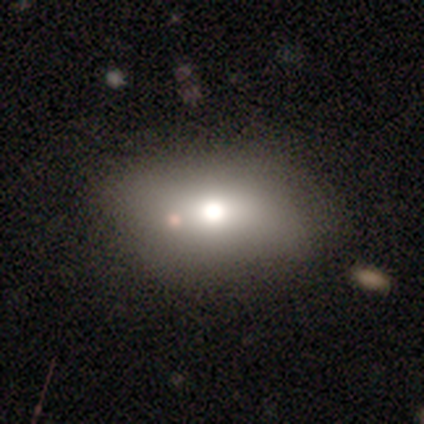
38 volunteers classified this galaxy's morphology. smooth_or_featured: smooth (p=0.74) [alt: featured or disk p=0.16]
how_rounded: in between (p=0.89) [alt: round p=0.07]
merging: none (p=0.47) [alt: minor disturbance p=0.41]